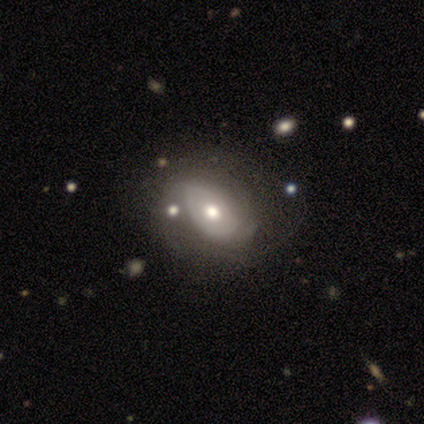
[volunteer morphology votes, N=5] Volunteers were most divided on "smooth or featured" (2-way tie): smooth: 40%, featured or disk: 40%, star or artifact: 20%. More confident: how rounded — in between (100%); merging — none (75%).